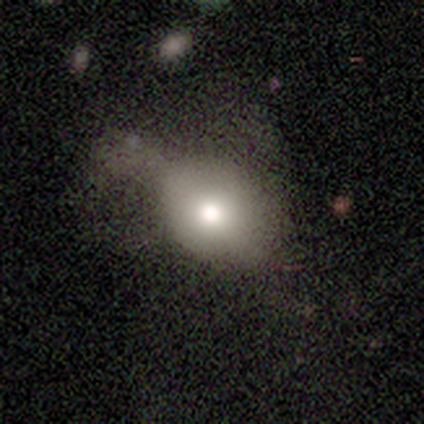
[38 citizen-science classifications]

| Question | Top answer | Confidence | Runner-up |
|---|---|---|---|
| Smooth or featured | smooth | 66% | featured or disk (29%) |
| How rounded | in between | 64% | round (36%) |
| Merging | major disturbance | 33% | minor disturbance (28%) |